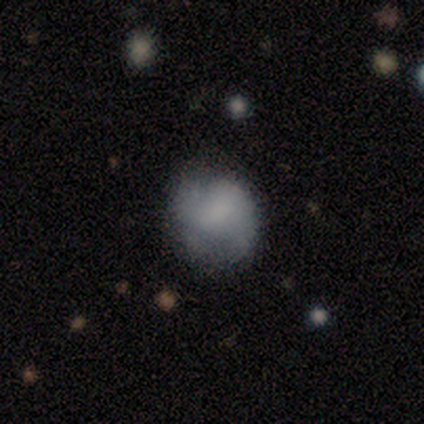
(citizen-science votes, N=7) Smooth or featured? 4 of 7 (57%) said smooth. How rounded? 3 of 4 (75%) said round. Merging? 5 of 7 (71%) said none.